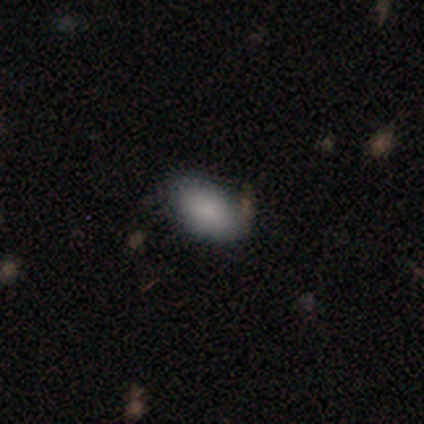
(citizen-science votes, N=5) Smooth or featured: smooth — 80% (featured or disk — 20%)
How rounded: in between — 100%
Merging: none — 80% (minor disturbance — 20%)